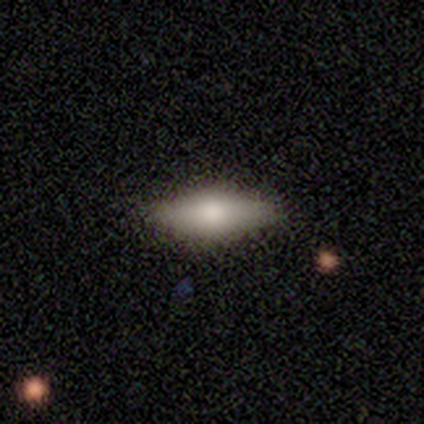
A smooth galaxy with no disk features (80%) that is in between round and cigar-shaped (50%, tied with cigar-shaped).

Vote fractions:
- Smooth or featured? smooth: 80% / star or artifact: 20% / featured or disk: 0%
- How rounded? in between: 50% (tied) / cigar-shaped: 50% (tied) / round: 0%
- Merging? none: 100% / minor disturbance: 0% / major disturbance: 0% / merger: 0%